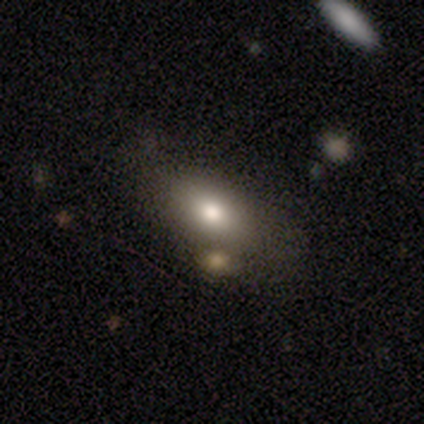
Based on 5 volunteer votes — Smooth or featured? 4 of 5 (80%) said smooth. How rounded? 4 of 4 (100%) said in between. Merging? 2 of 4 (50%) said none.